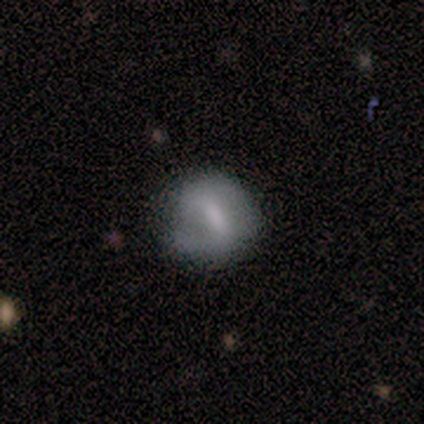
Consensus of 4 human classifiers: A smooth galaxy with no disk features (75%) that is round (100%).

Vote fractions:
- Smooth or featured? smooth: 75% / featured or disk: 25% / star or artifact: 0%
- How rounded? round: 100% / in between: 0% / cigar-shaped: 0%
- Merging? none: 75% / minor disturbance: 25% / major disturbance: 0% / merger: 0%